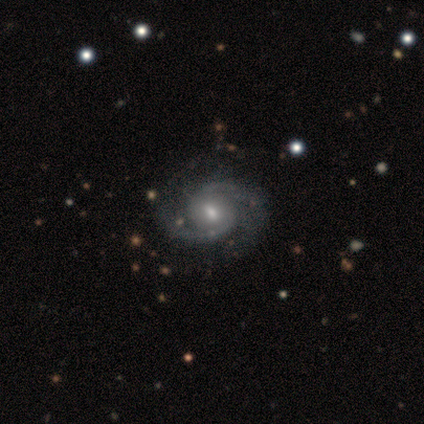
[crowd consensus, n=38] A featured or disk galaxy (92%) with a weak bar (56%), 2 (91%) medium (68%) spiral arms (100%) and a moderate central bulge (68%).

Vote fractions:
- Smooth or featured? featured or disk: 92% / smooth: 8% / star or artifact: 0%
- Edge-on disk? no: 97% / yes: 3%
- Bar? weak: 56% / no: 41% / strong: 3%
- Spiral arms? yes: 100% / no: 0%
- Spiral winding? medium: 68% / tight: 24% / loose: 9%
- Spiral arm count? 2: 91% / 3: 9% / 1: 0% / 4: 0% / more than 4: 0% / can't tell: 0%
- Bulge size? moderate: 68% / small: 32% / dominant: 0% / large: 0% / none: 0%
- Merging? none: 61% / major disturbance: 5% / minor disturbance: 3% / merger: 3%